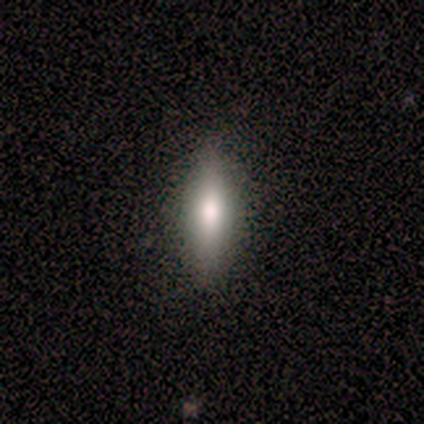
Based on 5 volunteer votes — Q: Smooth or featured?
A: smooth (100%)
Q: How rounded?
A: in between (60%); runner-up: cigar-shaped (40%)
Q: Merging?
A: none (100%)